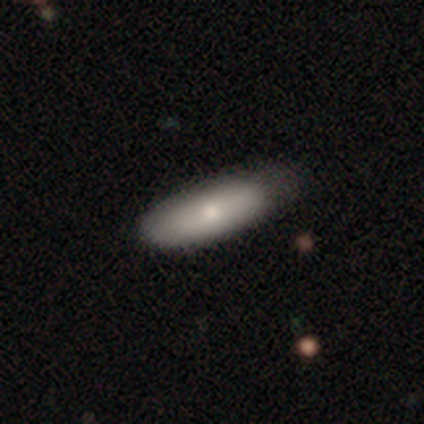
smooth_or_featured: smooth (p=0.69) [alt: featured or disk p=0.26]
how_rounded: in between (p=0.74) [alt: cigar-shaped p=0.22]
merging: none (p=0.54) [alt: minor disturbance p=0.38]